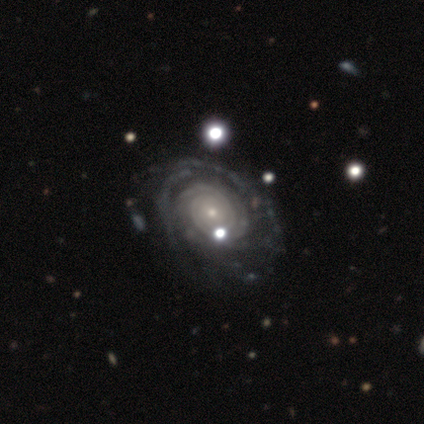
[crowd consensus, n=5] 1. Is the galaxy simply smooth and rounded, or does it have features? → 100% featured or disk, 0% smooth, 0% star or artifact.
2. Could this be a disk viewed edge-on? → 100% no, 0% yes.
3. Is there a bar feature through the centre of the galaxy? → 80% no, 20% weak, 0% strong.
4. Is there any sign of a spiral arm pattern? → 100% yes, 0% no.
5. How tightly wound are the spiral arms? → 80% tight, 20% medium, 0% loose.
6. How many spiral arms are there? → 40% can't tell, 20% 2, 20% 3, 20% more than 4, 0% 1, 0% 4.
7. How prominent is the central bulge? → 80% small, 20% moderate, 0% dominant, 0% large, 0% none.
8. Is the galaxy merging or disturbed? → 60% none, 20% minor disturbance, 20% major disturbance, 0% merger.